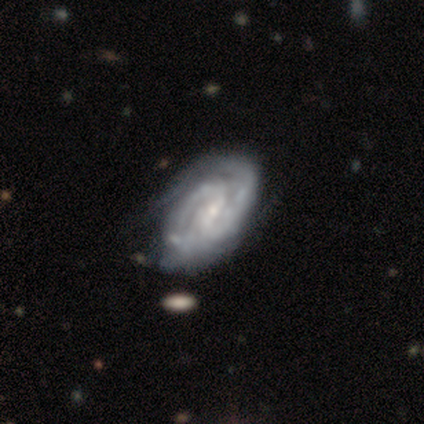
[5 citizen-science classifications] A featured or disk galaxy (100%) with no bar (75%), 2 (100%) tight (50%) spiral arms (100%) and a moderate central bulge (50%, tied with small). Merging: none (80%).